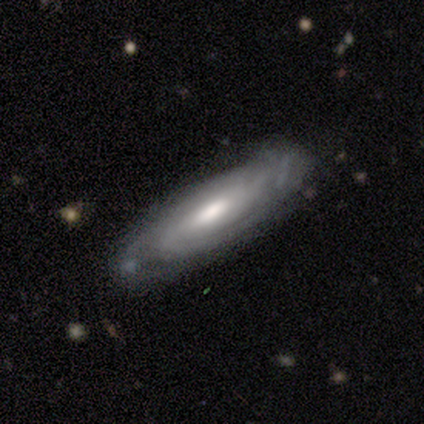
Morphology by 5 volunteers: smooth_or_featured: featured or disk (p=0.80) [alt: star or artifact p=0.20]
disk_edge_on: no (p=1.00)
bar: no (p=0.50) [alt: strong p=0.25]
has_spiral_arms: yes (p=1.00)
spiral_winding: medium (p=0.75) [alt: tight p=0.25]
spiral_arm_count: can't tell (p=0.50) [alt: 3 p=0.25]
bulge_size: moderate (p=0.50) [tied with: small p=0.50]
merging: none (p=1.00)